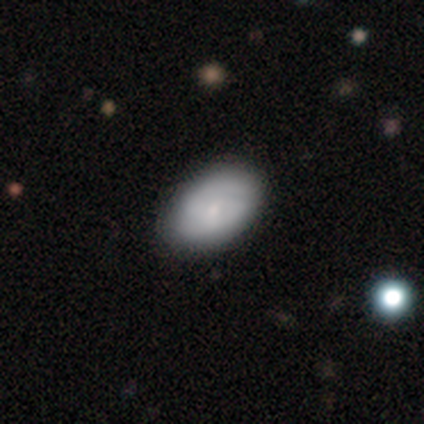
Smooth or featured: smooth — 82% (featured or disk — 18%)
How rounded: in between — 91% (round — 6%)
Merging: none — 72% (merger — 8%)